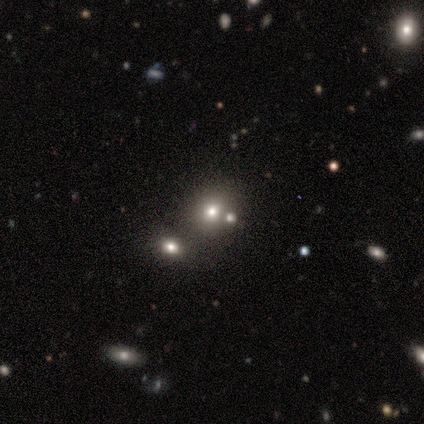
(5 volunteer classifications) smooth 80%, featured or disk 20%, star or artifact 0%. Down the decision tree: how rounded — round (100%); merging — none (100%).